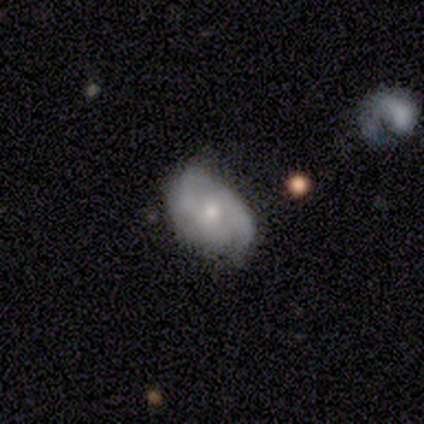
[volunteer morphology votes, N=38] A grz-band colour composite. It shows a featured or disk galaxy (61%) with no bar (59%), 2 (74%) medium (47%) spiral arms (86%) and a moderate central bulge (55%). Merging: none (74%).